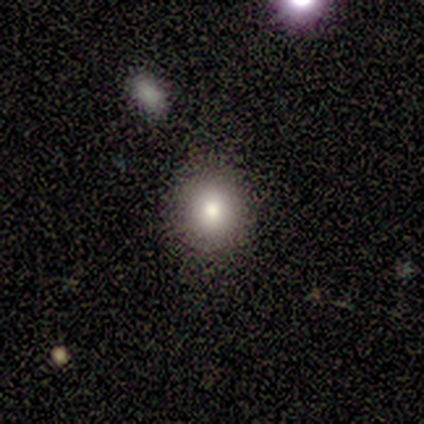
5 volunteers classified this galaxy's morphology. A smooth galaxy with no disk features (100%) that is round (80%). Merging: none (80%).